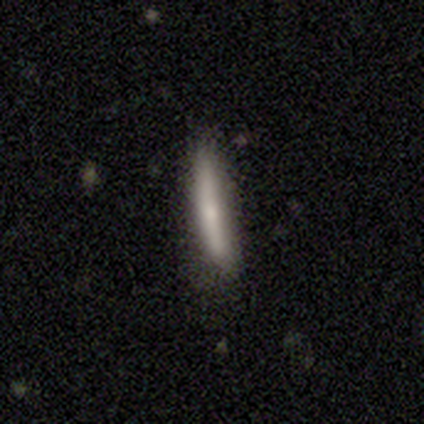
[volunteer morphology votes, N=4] This appears to be a smooth galaxy with no disk features (75%) that is cigar-shaped (100%). Merging: none (75%).